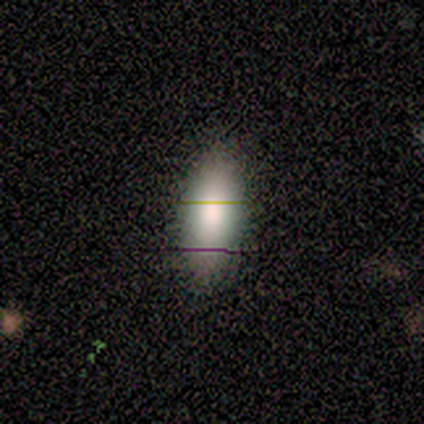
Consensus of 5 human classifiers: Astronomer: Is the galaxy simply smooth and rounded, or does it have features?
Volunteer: smooth — 60% (runner-up: star or artifact, 40%).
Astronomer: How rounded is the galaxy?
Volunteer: in between — 67%.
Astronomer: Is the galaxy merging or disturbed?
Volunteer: none — 100%.